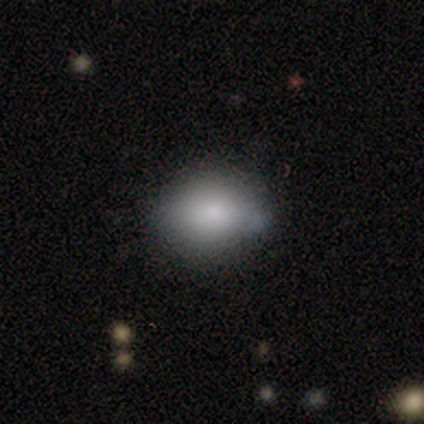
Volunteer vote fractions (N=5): This is clearly a smooth galaxy (100%). How rounded: clearly in between (80%). Merging: clearly none (80%).